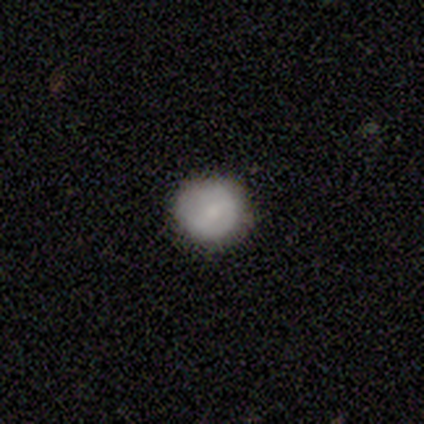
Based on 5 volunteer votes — A smooth galaxy with no disk features (80%) that is round (100%).

Vote fractions:
- Smooth or featured? smooth: 80% / featured or disk: 20% / star or artifact: 0%
- How rounded? round: 100% / in between: 0% / cigar-shaped: 0%
- Merging? none: 80% / minor disturbance: 20% / major disturbance: 0% / merger: 0%